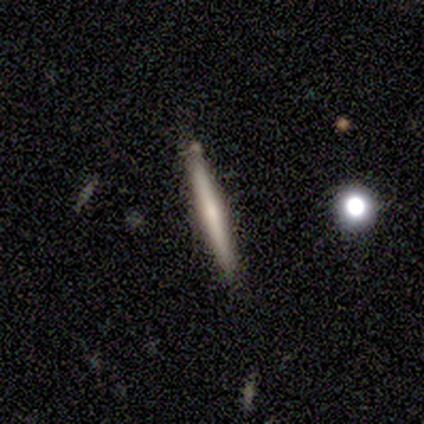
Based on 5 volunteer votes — smooth-or-featured: smooth: 60% | featured or disk: 40% | star or artifact: 0%
  how-rounded: cigar-shaped: 100% | round: 0% | in between: 0%
  merging: none: 80% | minor disturbance: 20% | major disturbance: 0% | merger: 0%